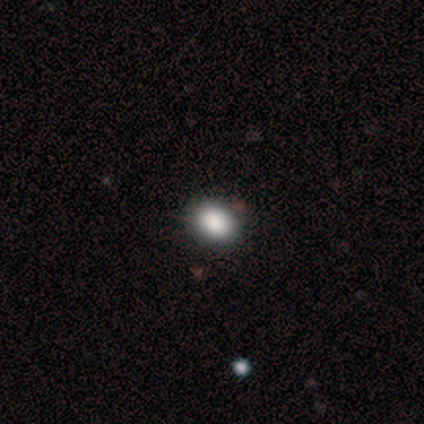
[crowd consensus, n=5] smooth 80%, featured or disk 20%, star or artifact 0%. Down the decision tree: how rounded — in between (75%); merging — none (100%).